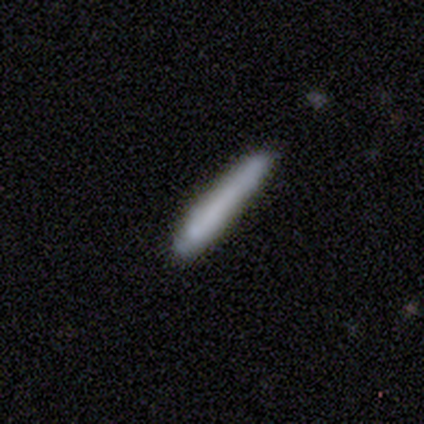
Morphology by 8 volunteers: This appears to be a smooth galaxy with no disk features (75%) that is cigar-shaped (100%). Merging: none (57%).